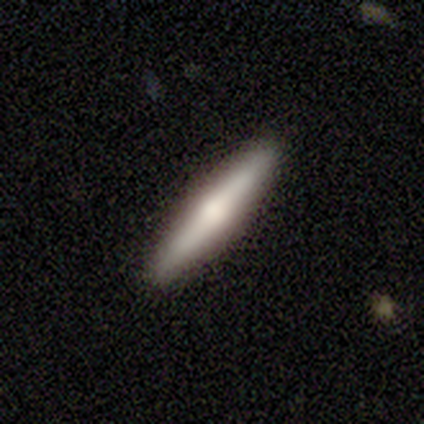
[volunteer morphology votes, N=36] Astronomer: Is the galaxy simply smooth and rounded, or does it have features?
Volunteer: smooth — 50% (runner-up: featured or disk, 47%).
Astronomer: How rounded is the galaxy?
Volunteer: cigar-shaped — 94%.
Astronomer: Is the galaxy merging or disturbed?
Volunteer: none — 91%.